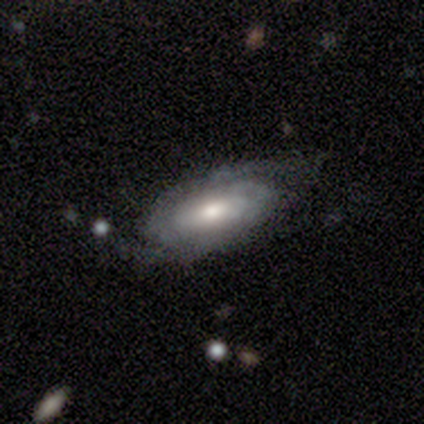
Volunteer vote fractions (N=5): Overall: featured or disk (100%). Edge-on disk: no (100%). Bar: no (60%; weak 40%). Spiral arms: yes (80%). Spiral arm count: 2 (50%, tied with can't tell). Spiral winding: tight (75%). Bulge size: moderate (80%). Merging: none (80%).